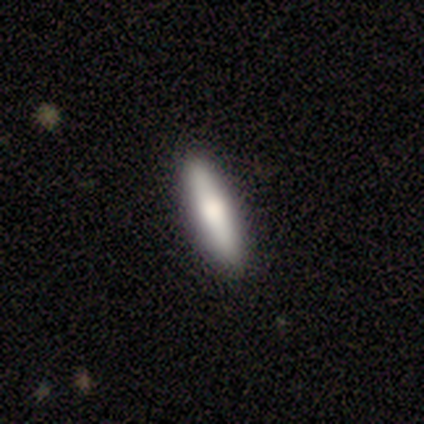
Volunteers were most divided on "smooth or featured": smooth: 60%, featured or disk: 40%, star or artifact: 0%. More confident: merging — none (80%); how rounded — in between (67%).